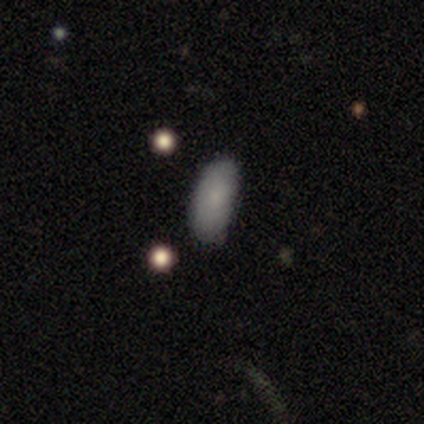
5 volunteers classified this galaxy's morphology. A smooth galaxy with no disk features (80%) that is in between round and cigar-shaped (75%). Merging: none (80%).